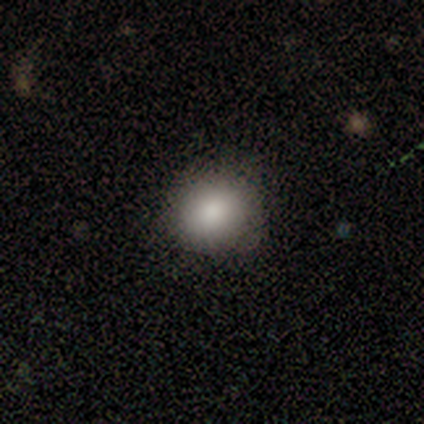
Q: Smooth or featured?
A: smooth (86%); runner-up: star or artifact (10%)
Q: How rounded?
A: round (88%); runner-up: in between (12%)
Q: Merging?
A: none (45%); runner-up: minor disturbance (3%)